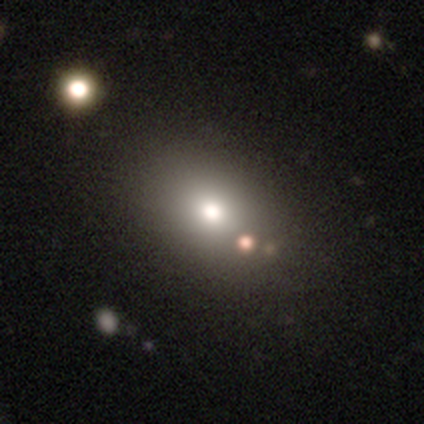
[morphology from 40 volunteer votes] type=smooth (72%); roundness=in between (52%); merging=none (69%).